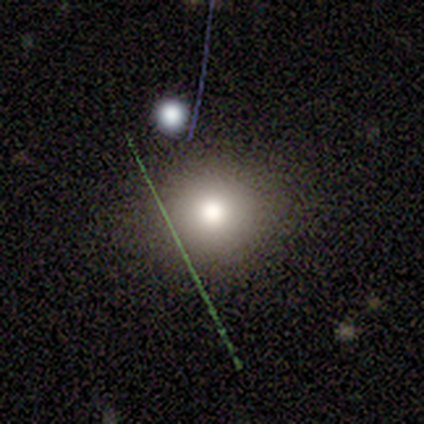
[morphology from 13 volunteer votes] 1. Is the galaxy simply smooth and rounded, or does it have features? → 69% smooth, 15% featured or disk, 15% star or artifact.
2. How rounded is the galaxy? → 78% round, 22% in between, 0% cigar-shaped.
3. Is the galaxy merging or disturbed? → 82% none, 18% minor disturbance, 0% major disturbance, 0% merger.